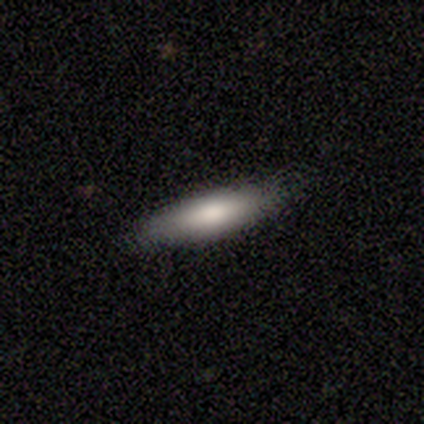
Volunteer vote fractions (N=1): Smooth or featured: smooth — 100%
How rounded: in between — 100%
Merging: none — 100%